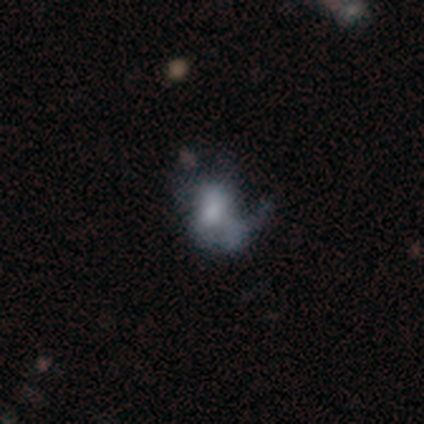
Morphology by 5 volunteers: A featured or disk galaxy (80%) with no bar (100%), no spiral arms (75%) and a large central bulge (25%, tied with moderate, small and none). Merging: none (40%, tied with minor disturbance).